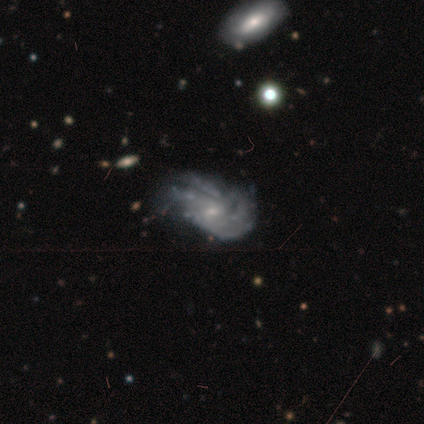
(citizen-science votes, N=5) smooth-or-featured: featured or disk: 100% | smooth: 0% | star or artifact: 0%
  disk-edge-on: no: 100% | yes: 0%
    bar: no: 80% | weak: 20% | strong: 0%
    has-spiral-arms: yes: 80% | no: 20%
      spiral-winding: tight: 75% | loose: 25% | medium: 0%
      spiral-arm-count: can't tell: 75% | more than 4: 25% | 1: 0% | 2: 0% | 3: 0% | 4: 0%
    bulge-size: small: 100% | dominant: 0% | large: 0% | moderate: 0% | none: 0%
  merging: none: 60% | minor disturbance: 20% | major disturbance: 20% | merger: 0%